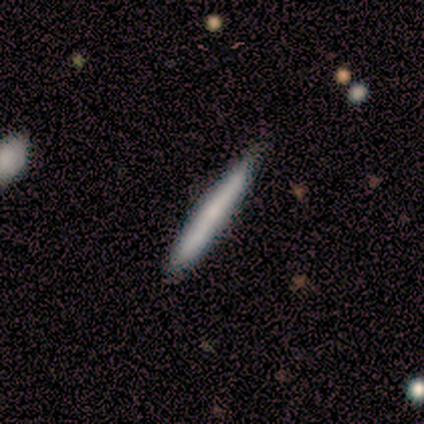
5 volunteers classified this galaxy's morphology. This is clearly a smooth galaxy (80%). How rounded: clearly cigar-shaped (100%). Merging: likely none (60%).